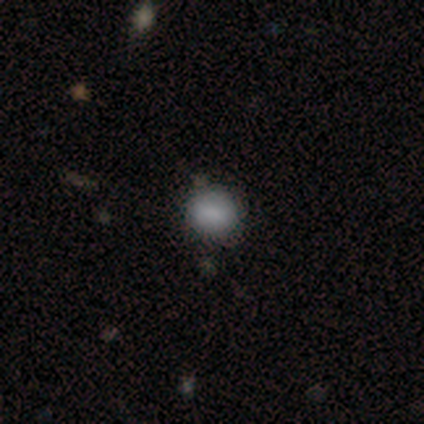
smooth_or_featured: smooth (p=0.77) [alt: star or artifact p=0.15]
how_rounded: round (p=1.00)
merging: none (p=0.64) [alt: merger p=0.18]